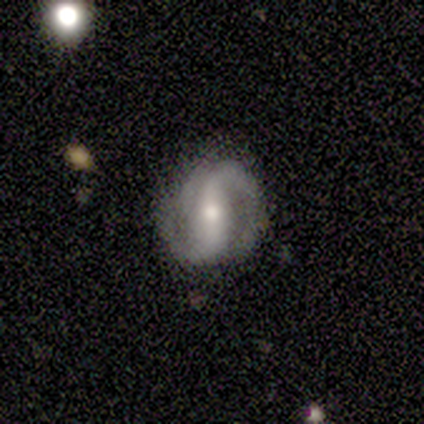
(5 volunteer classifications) A featured or disk galaxy (80%) with a strong bar (75%), 2 (100%) tight (50%, tied with loose) spiral arms (100%) and a moderate central bulge (75%).

Vote fractions:
- Smooth or featured? featured or disk: 80% / star or artifact: 20% / smooth: 0%
- Edge-on disk? no: 100% / yes: 0%
- Bar? strong: 75% / weak: 25% / no: 0%
- Spiral arms? yes: 100% / no: 0%
- Spiral winding? tight: 50% (tied) / loose: 50% (tied) / medium: 0%
- Spiral arm count? 2: 100% / 1: 0% / 3: 0% / 4: 0% / more than 4: 0% / can't tell: 0%
- Bulge size? moderate: 75% / small: 25% / dominant: 0% / large: 0% / none: 0%
- Merging? none: 100% / minor disturbance: 0% / major disturbance: 0% / merger: 0%